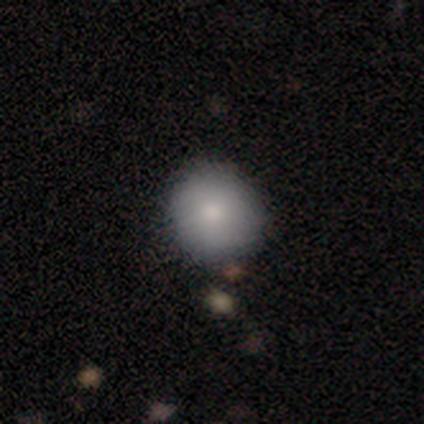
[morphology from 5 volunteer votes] Smooth or featured? smooth (80%)
How rounded? round (100%)
Merging? none (100%)